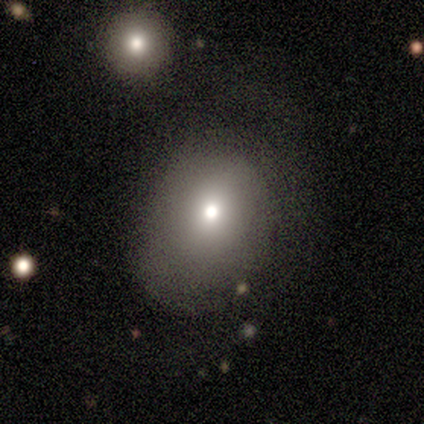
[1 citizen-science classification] This is clearly a smooth galaxy (100%). How rounded: clearly round (100%). Merging: clearly minor disturbance (100%).